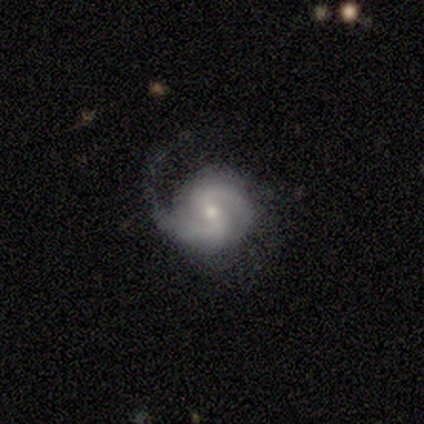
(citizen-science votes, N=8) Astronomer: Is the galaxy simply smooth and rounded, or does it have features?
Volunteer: featured or disk — 88%.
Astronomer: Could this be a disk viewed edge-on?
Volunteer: no — 100%.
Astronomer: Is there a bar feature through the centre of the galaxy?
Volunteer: weak — 43% (runner-up: strong, 29%).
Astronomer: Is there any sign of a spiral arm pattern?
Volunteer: yes — 100%.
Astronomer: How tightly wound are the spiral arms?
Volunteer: medium — 71%.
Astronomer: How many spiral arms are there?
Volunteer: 2 — 100%.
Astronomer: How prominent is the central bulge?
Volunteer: moderate — 71%.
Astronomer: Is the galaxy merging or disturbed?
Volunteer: none — 38%, tied with minor disturbance at 38%.